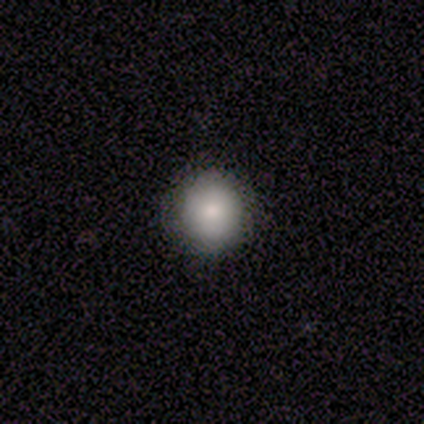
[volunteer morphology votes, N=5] A smooth galaxy with no disk features (100%) that is round (100%). Merging: none (100%).